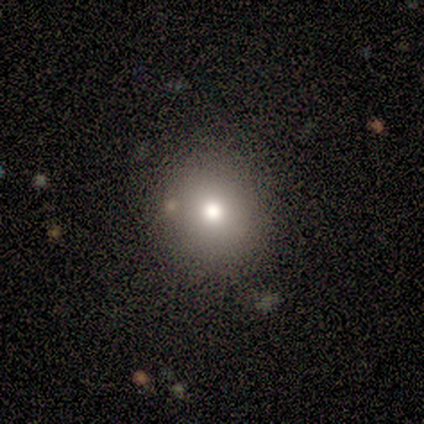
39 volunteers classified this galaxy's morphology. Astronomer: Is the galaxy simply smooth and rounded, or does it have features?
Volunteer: smooth — 82%.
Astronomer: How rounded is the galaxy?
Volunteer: round — 97%.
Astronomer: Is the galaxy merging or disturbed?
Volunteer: none — 73%.